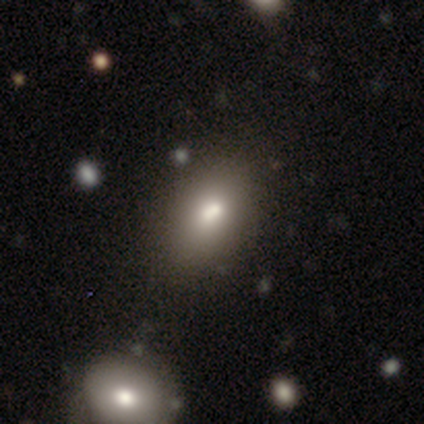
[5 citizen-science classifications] Overall: smooth (60%; star or artifact 40%). How rounded: in between (100%). Merging: none (67%; minor disturbance 33%).